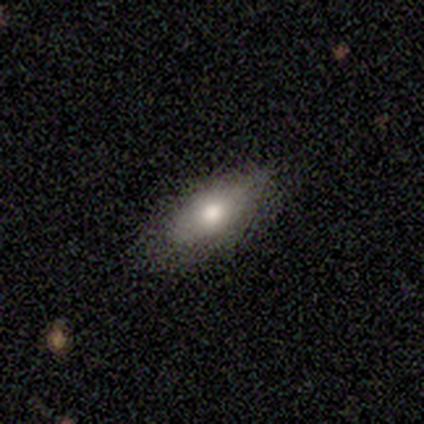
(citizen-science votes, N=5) This is marginally a smooth galaxy (40%, tied with star or artifact). How rounded: clearly in between (100%). Merging: marginally none (33%, tied with minor disturbance and merger).